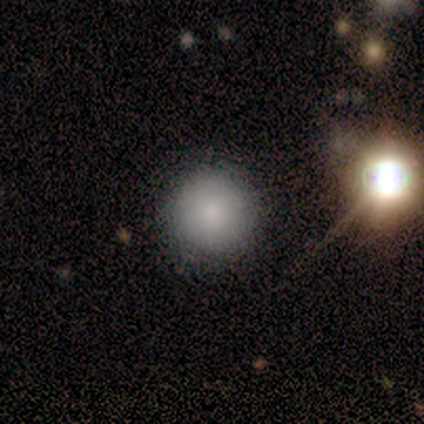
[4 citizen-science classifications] This appears to be a smooth galaxy with no disk features (75%) that is round (100%). Merging: none (100%).